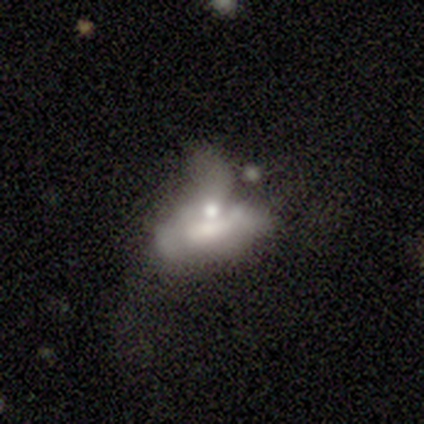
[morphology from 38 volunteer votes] smooth_or_featured: featured or disk (p=0.68) [alt: smooth p=0.21]
disk_edge_on: no (p=0.92) [alt: yes p=0.08]
bar: no (p=0.75) [alt: strong p=0.12]
has_spiral_arms: no (p=0.83) [alt: yes p=0.17]
bulge_size: moderate (p=0.33) [alt: small p=0.29]
merging: merger (p=0.50) [alt: major disturbance p=0.38]